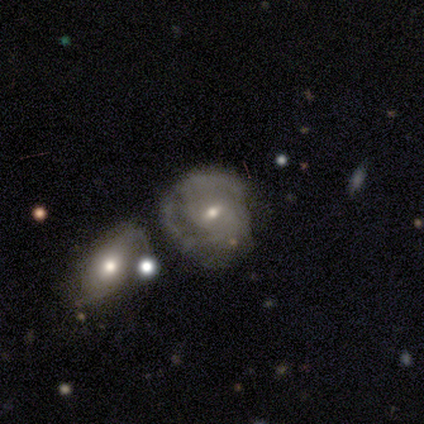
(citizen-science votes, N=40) Q: Smooth or featured?
A: featured or disk (75%); runner-up: smooth (18%)
Q: Edge-on disk?
A: no (100%)
Q: Bar?
A: no (50%); runner-up: weak (40%)
Q: Spiral arms?
A: yes (73%); runner-up: no (27%)
Q: Spiral winding?
A: tight (55%); runner-up: medium (36%)
Q: Spiral arm count?
A: 2 (36%); tied with: can't tell (36%)
Q: Bulge size?
A: small (57%); runner-up: moderate (40%)
Q: Merging?
A: minor disturbance (32%); runner-up: none (24%)